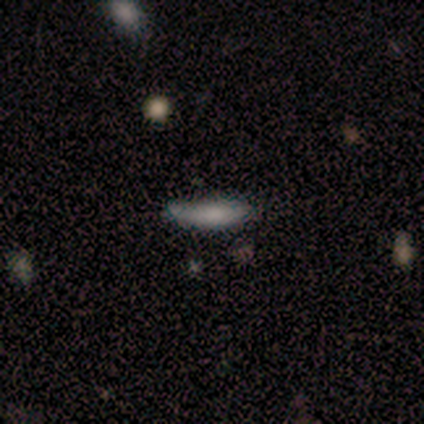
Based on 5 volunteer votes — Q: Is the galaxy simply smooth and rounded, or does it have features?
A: smooth — 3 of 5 (60%).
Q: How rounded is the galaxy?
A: cigar-shaped — 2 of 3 (67%).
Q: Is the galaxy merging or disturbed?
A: none — 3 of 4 (75%).